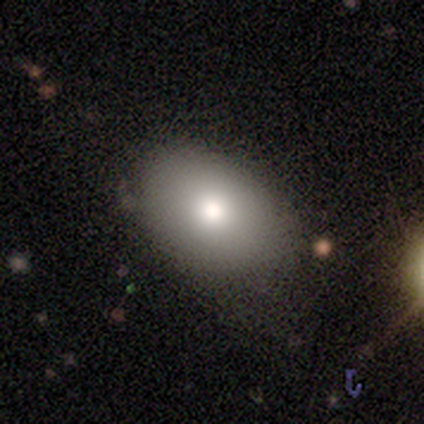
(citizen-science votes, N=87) Q: Smooth or featured?
A: smooth (80%); runner-up: featured or disk (11%)
Q: How rounded?
A: in between (81%); runner-up: round (17%)
Q: Merging?
A: none (71%); runner-up: minor disturbance (28%)